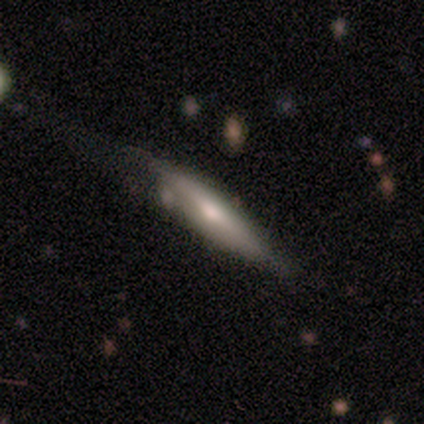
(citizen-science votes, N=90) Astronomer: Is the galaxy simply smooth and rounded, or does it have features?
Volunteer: featured or disk — 50% (runner-up: smooth, 46%).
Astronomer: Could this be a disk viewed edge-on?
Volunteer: yes — 82%.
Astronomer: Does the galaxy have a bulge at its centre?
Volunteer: rounded — 73%.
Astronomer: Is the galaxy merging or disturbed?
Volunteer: none — 51% (runner-up: minor disturbance, 28%).